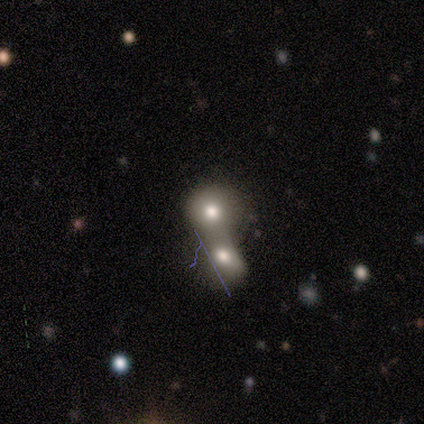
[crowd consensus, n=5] Smooth or featured? smooth (60%)
How rounded? round (100%)
Merging? merger (100%)